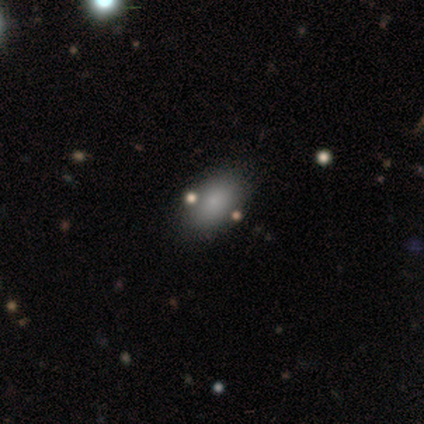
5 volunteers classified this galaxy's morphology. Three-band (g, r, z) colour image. It shows a smooth galaxy with no disk features (80%) that is in between round and cigar-shaped (100%). Merging: none (75%).